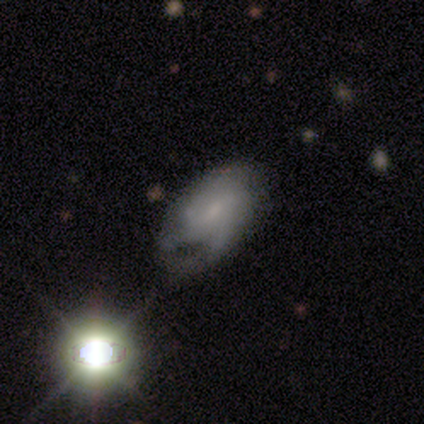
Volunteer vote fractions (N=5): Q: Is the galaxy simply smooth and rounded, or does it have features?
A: featured or disk — 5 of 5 (100%).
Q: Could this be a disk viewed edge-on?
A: no — 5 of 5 (100%).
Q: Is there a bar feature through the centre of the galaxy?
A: no — 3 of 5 (60%).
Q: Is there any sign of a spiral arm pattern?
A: yes — 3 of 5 (60%).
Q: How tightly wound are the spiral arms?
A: medium — 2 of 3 (67%).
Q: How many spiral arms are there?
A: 2 — 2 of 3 (67%).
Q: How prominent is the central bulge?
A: small — 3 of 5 (60%).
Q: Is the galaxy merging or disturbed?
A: none — 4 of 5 (80%).